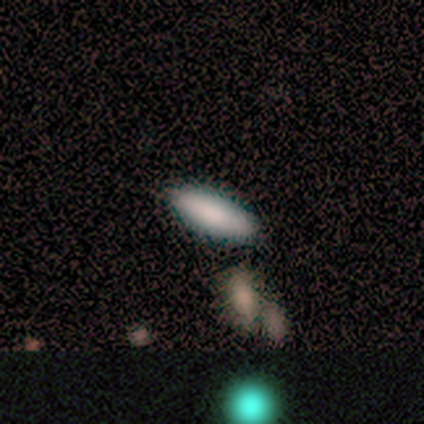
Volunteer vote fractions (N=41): Morphology: type=smooth (90%); roundness=in between (59%); merging=none (72%).